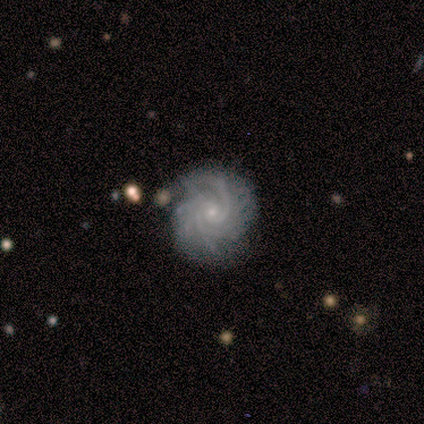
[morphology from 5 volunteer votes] smooth_or_featured: featured or disk (p=1.00)
disk_edge_on: no (p=0.80) [alt: yes p=0.20]
bar: no (p=1.00)
has_spiral_arms: yes (p=1.00)
spiral_winding: tight (p=1.00)
spiral_arm_count: 2 (p=0.50) [alt: more than 4 p=0.25]
bulge_size: small (p=0.75) [alt: none p=0.25]
merging: none (p=0.60) [alt: minor disturbance p=0.20]